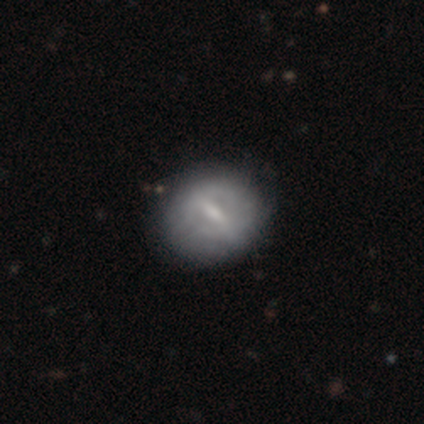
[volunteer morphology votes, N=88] smooth-or-featured: featured or disk: 49% | smooth: 43% | star or artifact: 8%
  disk-edge-on: no: 98% | yes: 2%
    bar: strong: 48% | weak: 45% | no: 7%
    has-spiral-arms: no: 79% | yes: 21%
    bulge-size: small: 50% | moderate: 31% | none: 19% | dominant: 0% | large: 0%
  merging: none: 81% | minor disturbance: 14% | major disturbance: 5% | merger: 0%